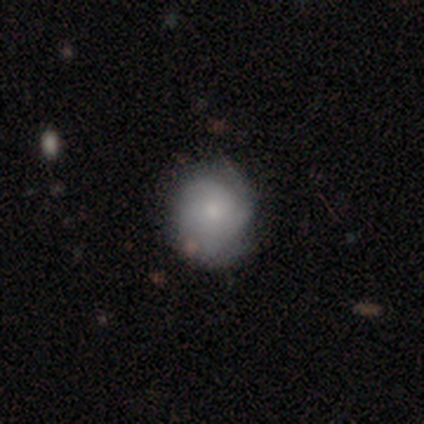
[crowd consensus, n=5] Overall: smooth (60%; featured or disk 20%). How rounded: round (67%; in between 33%). Merging: none (50%; minor disturbance 25%).